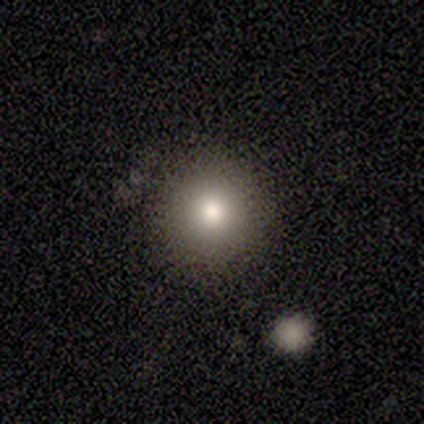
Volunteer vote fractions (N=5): Q: Smooth or featured?
A: smooth (100%)
Q: How rounded?
A: round (100%)
Q: Merging?
A: none (100%)